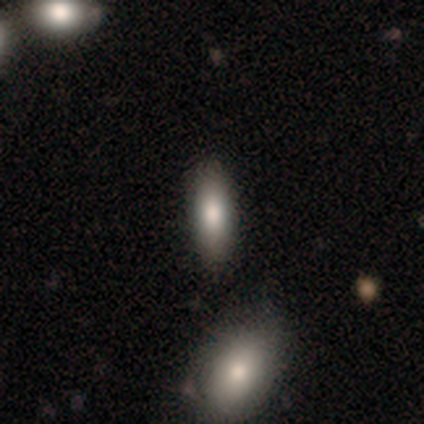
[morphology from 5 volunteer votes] Volunteers were most divided on "how rounded" (2-way tie): in between: 50%, cigar-shaped: 50%, round: 0%. More confident: smooth or featured — smooth (80%); merging — none (60%).